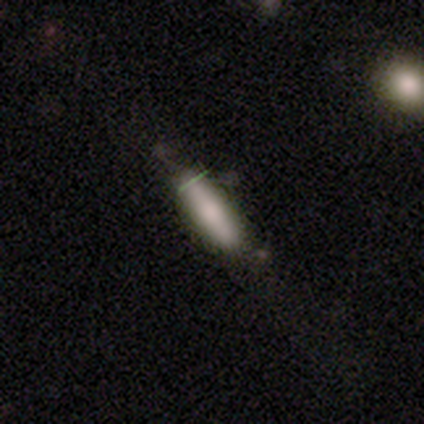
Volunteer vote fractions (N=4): This appears to be a smooth galaxy with no disk features (100%) that is cigar-shaped (75%). Merging: none (50%, tied with minor disturbance).